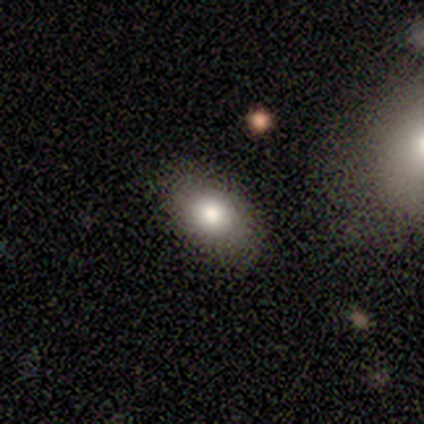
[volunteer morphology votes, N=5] Smooth or featured? smooth (80%)
How rounded? round (50%, tied with in between)
Merging? none (100%)